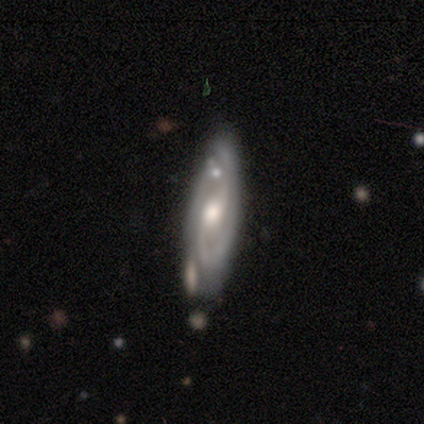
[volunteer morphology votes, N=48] type=featured or disk (83%); edge-on=no (72%); bar=weak (62%); spiral arms=yes (90%); winding=tight (50%); arm count=2 (54%); bulge=moderate (79%); merging=none (63%).